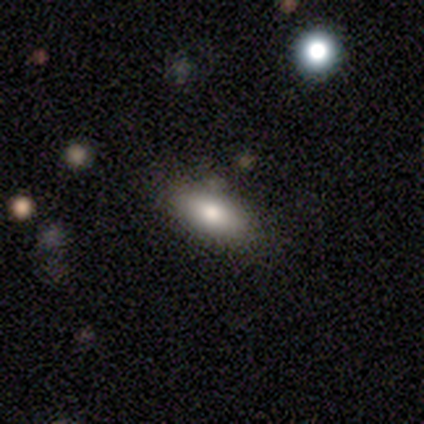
smooth_or_featured: smooth (p=0.60) [alt: featured or disk p=0.40]
how_rounded: in between (p=1.00)
merging: none (p=0.80) [alt: minor disturbance p=0.20]